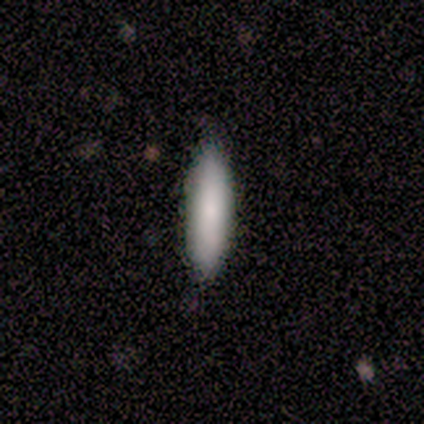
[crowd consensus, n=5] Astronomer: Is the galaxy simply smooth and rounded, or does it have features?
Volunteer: smooth — 100%.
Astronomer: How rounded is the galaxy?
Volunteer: cigar-shaped — 60% (runner-up: in between, 40%).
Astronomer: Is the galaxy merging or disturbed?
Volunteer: none — 80%.